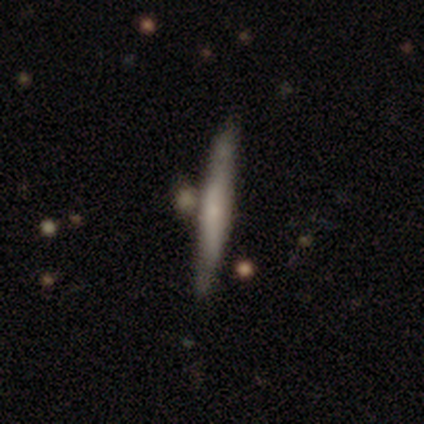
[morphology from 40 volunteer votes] A featured or disk galaxy (52%) viewed edge-on (90%) with a rounded central bulge (53%).

Vote fractions:
- Smooth or featured? featured or disk: 52% / smooth: 45% / star or artifact: 2%
- Edge-on disk? yes: 90% / no: 10%
- Edge-on bulge? rounded: 53% / none: 37% / boxy: 11%
- Merging? none: 33% / merger: 26% / minor disturbance: 10% / major disturbance: 3%